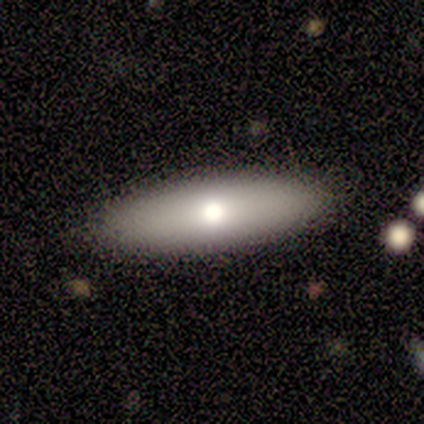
Q: Smooth or featured?
A: smooth (40%); tied with: featured or disk (40%)
Q: How rounded?
A: in between (50%); tied with: cigar-shaped (50%)
Q: Merging?
A: none (100%)